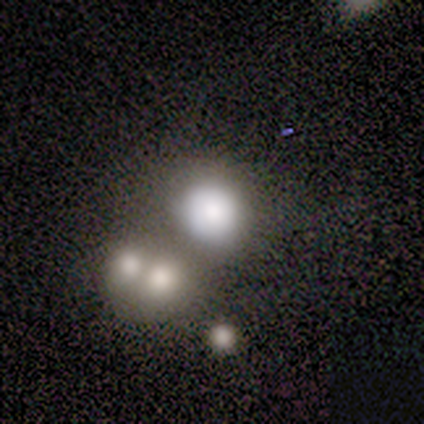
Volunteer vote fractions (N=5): smooth_or_featured: smooth (p=0.60) [alt: featured or disk p=0.20]
how_rounded: round (p=0.67) [alt: in between p=0.33]
merging: none (p=0.50) [tied with: merger p=0.50]